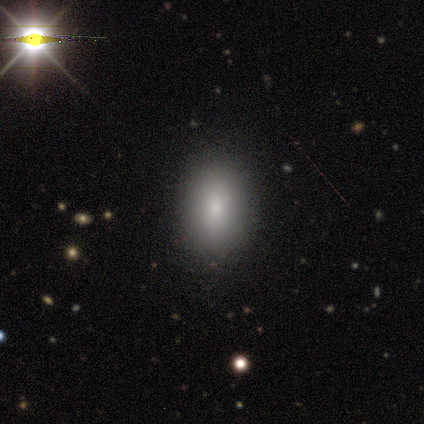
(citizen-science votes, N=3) Volunteers were most divided on "smooth or featured": star or artifact: 67%, smooth: 33%, featured or disk: 0%.